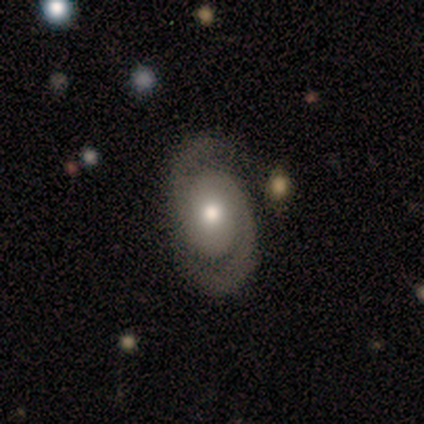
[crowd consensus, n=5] Smooth or featured: featured or disk — 100%
Edge-on disk: no — 100%
Bar: no — 100%
Spiral arms: yes — 100%
Spiral winding: medium — 60% (tight — 40%)
Spiral arm count: 2 — 100%
Bulge size: moderate — 100%
Merging: minor disturbance — 60% (none — 20%)